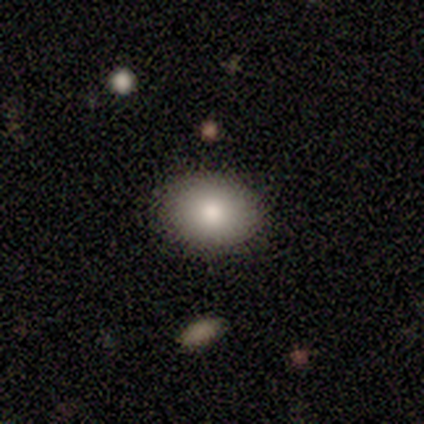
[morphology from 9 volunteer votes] A smooth galaxy with no disk features (78%) that is in between round and cigar-shaped (86%). Merging: none (100%).